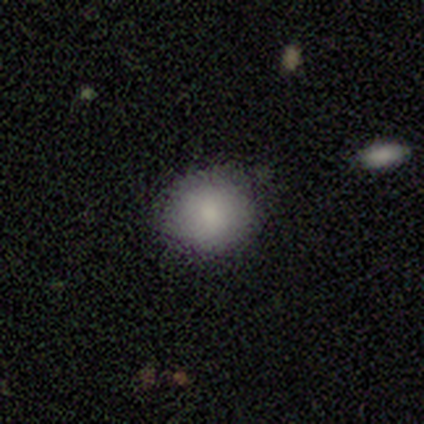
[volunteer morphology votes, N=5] A smooth galaxy with no disk features (100%) that is round (100%).

Vote fractions:
- Smooth or featured? smooth: 100% / featured or disk: 0% / star or artifact: 0%
- How rounded? round: 100% / in between: 0% / cigar-shaped: 0%
- Merging? none: 100% / minor disturbance: 0% / major disturbance: 0% / merger: 0%